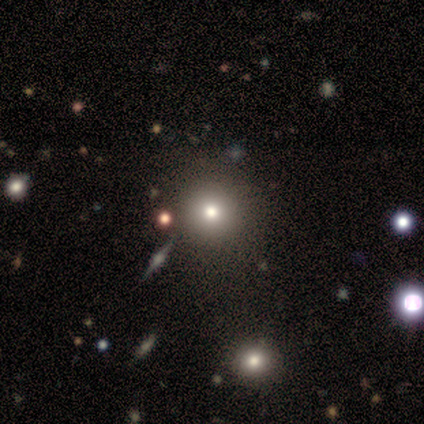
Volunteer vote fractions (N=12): Smooth or featured?
  - smooth: 58% *
  - featured or disk: 25%
  - star or artifact: 17%
How rounded?
  - round: 86% *
  - in between: 14%
  - cigar-shaped: 0%
Merging?
  - none: 80% *
  - minor disturbance: 10%
  - major disturbance: 10%
  - merger: 0%